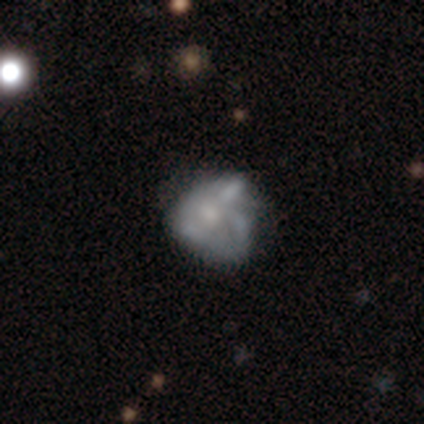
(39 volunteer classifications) Smooth or featured? 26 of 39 (67%) said featured or disk. Edge-on disk? 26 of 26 (100%) said no. Bar? 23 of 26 (88%) said no. Spiral arms? 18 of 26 (69%) said no. Bulge size? 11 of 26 (42%) said moderate. Merging? 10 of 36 (28%) said none.